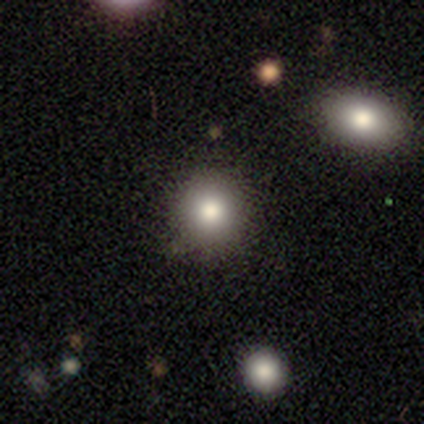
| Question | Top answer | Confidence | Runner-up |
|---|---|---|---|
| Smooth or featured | smooth | 85% | star or artifact (10%) |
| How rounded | round | 100% | — |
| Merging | none | 83% | minor disturbance (11%) |